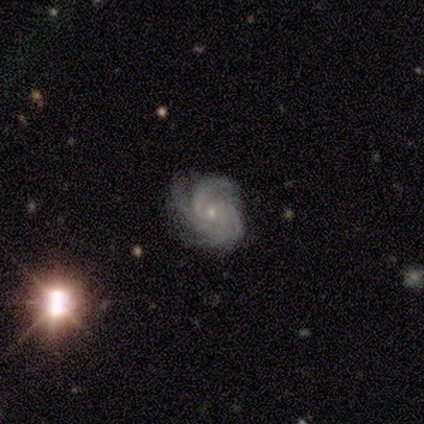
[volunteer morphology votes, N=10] A featured or disk galaxy (90%) with no bar (89%), 4 (44%) tight (56%) spiral arms (100%) and a small central bulge (89%).

Vote fractions:
- Smooth or featured? featured or disk: 90% / star or artifact: 10% / smooth: 0%
- Edge-on disk? no: 100% / yes: 0%
- Bar? no: 89% / weak: 11% / strong: 0%
- Spiral arms? yes: 100% / no: 0%
- Spiral winding? tight: 56% / medium: 44% / loose: 0%
- Spiral arm count? 4: 44% / 3: 33% / 2: 22% / 1: 0% / more than 4: 0% / can't tell: 0%
- Bulge size? small: 89% / moderate: 11% / dominant: 0% / large: 0% / none: 0%
- Merging? none: 67% / minor disturbance: 33% / major disturbance: 0% / merger: 0%